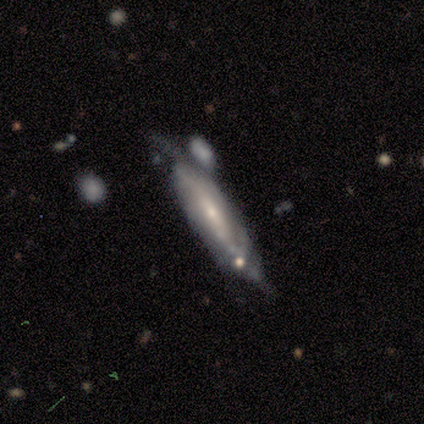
Q: Smooth or featured?
A: featured or disk (60%); runner-up: smooth (40%)
Q: Edge-on disk?
A: no (67%); runner-up: yes (33%)
Q: Bar?
A: weak (50%); tied with: no (50%)
Q: Spiral arms?
A: yes (50%); tied with: no (50%)
Q: Spiral winding?
A: medium (100%)
Q: Spiral arm count?
A: 1 (100%)
Q: Bulge size?
A: small (50%); tied with: none (50%)
Q: Merging?
A: minor disturbance (40%); tied with: major disturbance (40%)